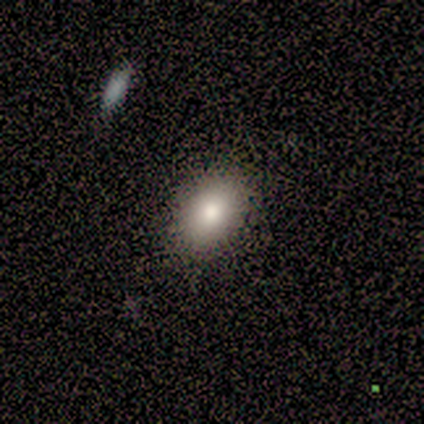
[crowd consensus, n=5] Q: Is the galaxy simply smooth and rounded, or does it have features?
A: smooth — 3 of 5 (60%).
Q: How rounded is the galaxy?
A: in between — 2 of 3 (67%).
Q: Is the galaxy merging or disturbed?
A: none — 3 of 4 (75%).